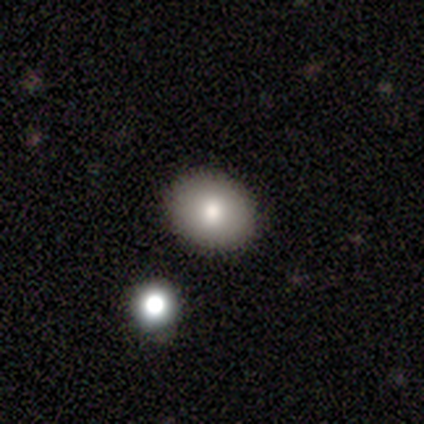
Smooth or featured? 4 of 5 (80%) said smooth. How rounded? 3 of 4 (75%) said in between. Merging? 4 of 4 (100%) said none.